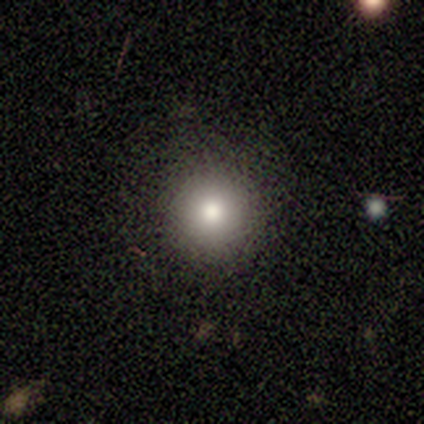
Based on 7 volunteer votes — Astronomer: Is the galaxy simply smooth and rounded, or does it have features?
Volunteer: smooth — 71%.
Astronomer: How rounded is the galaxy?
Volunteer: round — 80%.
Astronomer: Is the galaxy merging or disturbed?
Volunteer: none — 67%.